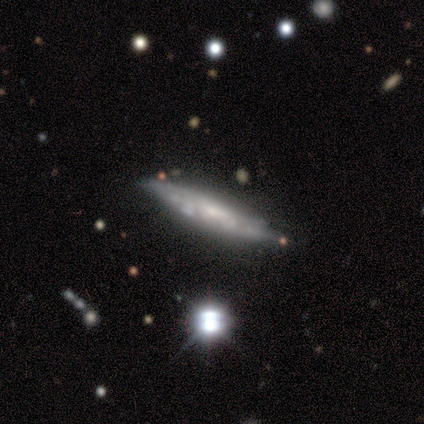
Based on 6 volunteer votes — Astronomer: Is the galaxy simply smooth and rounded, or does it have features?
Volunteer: featured or disk — 67%.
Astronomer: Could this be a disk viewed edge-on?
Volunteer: yes — 50%, tied with no at 50%.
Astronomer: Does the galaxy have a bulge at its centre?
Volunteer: none — 50%, tied with rounded at 50%.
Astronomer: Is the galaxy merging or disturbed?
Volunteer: none — 83%.